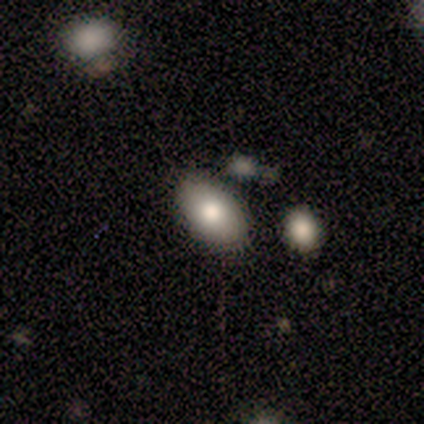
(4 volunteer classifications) Q: Smooth or featured?
A: smooth (50%); runner-up: featured or disk (25%)
Q: How rounded?
A: in between (100%)
Q: Merging?
A: none (100%)